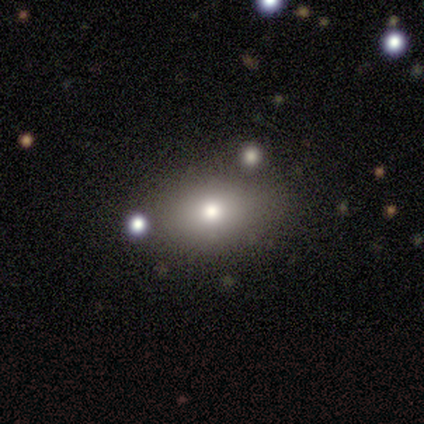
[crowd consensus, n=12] Morphology: type=smooth (75%); roundness=in between (89%); merging=none (100%).